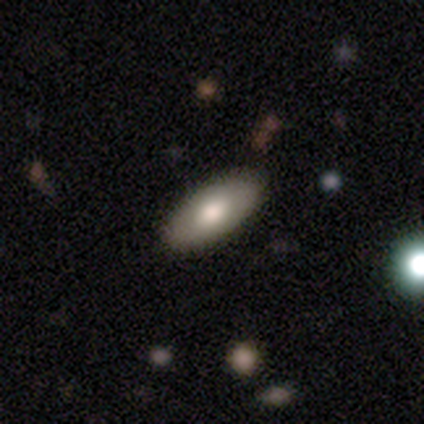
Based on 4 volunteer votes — Smooth or featured? 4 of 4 (100%) said smooth. How rounded? 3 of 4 (75%) said in between. Merging? 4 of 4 (100%) said none.